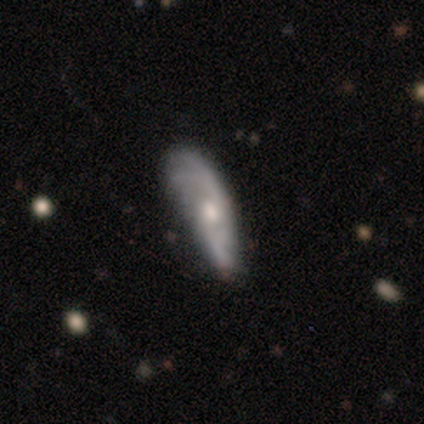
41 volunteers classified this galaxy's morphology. Smooth or featured?
  - featured or disk: 61% *
  - smooth: 29%
  - star or artifact: 10%
Edge-on disk?
  - no: 76% *
  - yes: 24%
Bar?
  - no: 68% *
  - weak: 26%
  - strong: 5%
Spiral arms?
  - yes: 95% *
  - no: 5%
Spiral winding?
  - loose: 39% *
  - tight: 33%
  - medium: 28%
Spiral arm count?
  - 2: 50% *
  - 3: 22%
  - can't tell: 22%
  - 1: 6%
  - 4: 0%
  - more than 4: 0%
Bulge size?
  - moderate: 42% * (tied)
  - small: 42% * (tied)
  - none: 16%
  - dominant: 0%
  - large: 0%
Merging?
  - none: 57% *
  - minor disturbance: 35%
  - major disturbance: 5%
  - merger: 3%